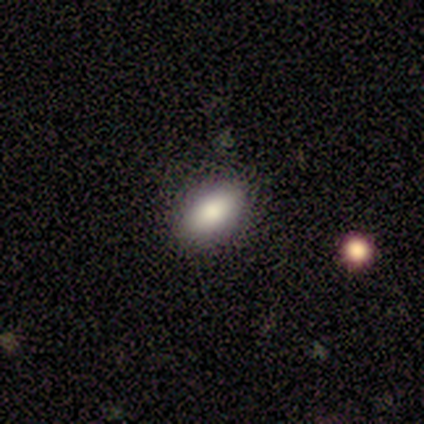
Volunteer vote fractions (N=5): smooth-or-featured: smooth: 80% | star or artifact: 20% | featured or disk: 0%
  how-rounded: in between: 100% | round: 0% | cigar-shaped: 0%
  merging: none: 100% | minor disturbance: 0% | major disturbance: 0% | merger: 0%